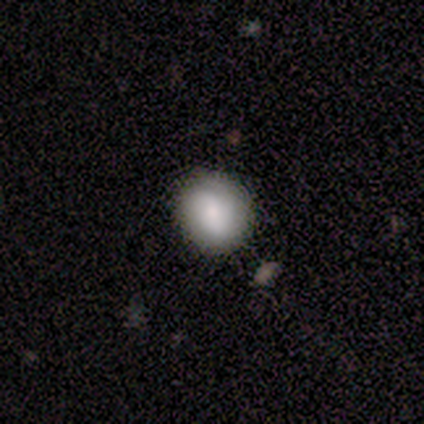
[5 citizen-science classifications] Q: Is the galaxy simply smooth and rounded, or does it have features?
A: smooth — 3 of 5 (60%).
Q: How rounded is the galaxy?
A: round — 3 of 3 (100%).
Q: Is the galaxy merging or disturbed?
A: none — 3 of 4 (75%).